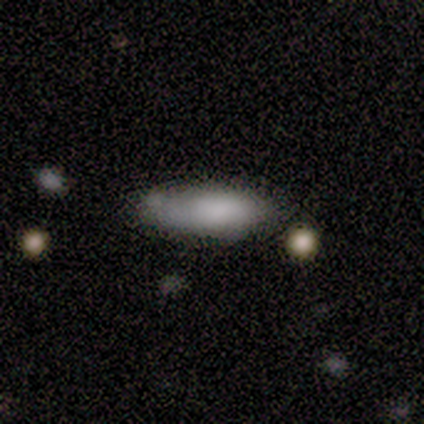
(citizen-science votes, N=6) Smooth or featured: smooth — 100%
How rounded: cigar-shaped — 83% (in between — 17%)
Merging: minor disturbance — 50% (none — 33%)